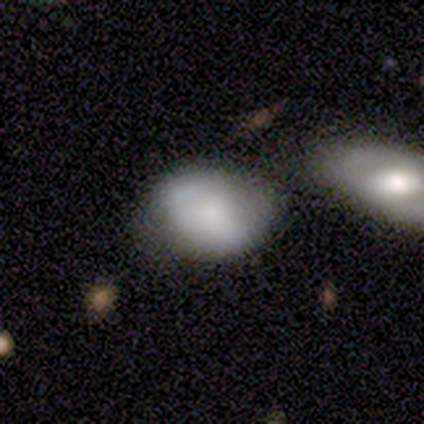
Smooth or featured? 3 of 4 (75%) said smooth. How rounded? 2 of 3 (67%) said in between. Merging? 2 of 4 (50%, tied with minor disturbance) said none.